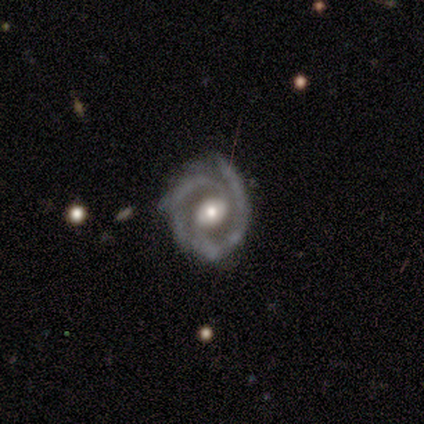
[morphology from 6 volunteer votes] Smooth or featured? 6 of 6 (100%) said featured or disk. Edge-on disk? 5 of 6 (83%) said no. Bar? 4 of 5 (80%) said no. Spiral arms? 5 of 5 (100%) said yes. Spiral winding? 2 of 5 (40%, tied with medium) said tight. Spiral arm count? 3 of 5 (60%) said 2. Bulge size? 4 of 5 (80%) said moderate. Merging? 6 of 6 (100%) said none.